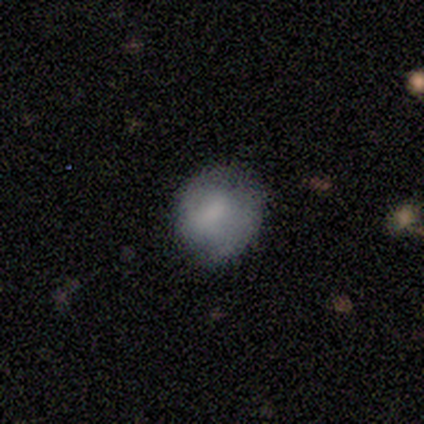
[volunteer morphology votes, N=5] Smooth or featured?
  - smooth: 60% *
  - featured or disk: 40%
  - star or artifact: 0%
How rounded?
  - round: 67% *
  - in between: 33%
  - cigar-shaped: 0%
Merging?
  - none: 80% *
  - minor disturbance: 20%
  - major disturbance: 0%
  - merger: 0%